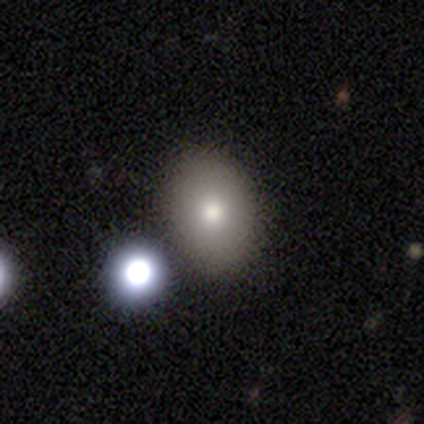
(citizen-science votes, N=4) smooth_or_featured: smooth (p=0.75) [alt: featured or disk p=0.25]
how_rounded: round (p=0.67) [alt: in between p=0.33]
merging: none (p=1.00)